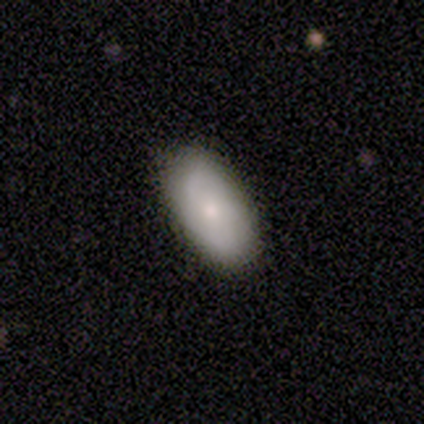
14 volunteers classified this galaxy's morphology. Q: Smooth or featured?
A: smooth (79%); runner-up: featured or disk (21%)
Q: How rounded?
A: in between (91%); runner-up: cigar-shaped (9%)
Q: Merging?
A: none (71%); runner-up: minor disturbance (29%)